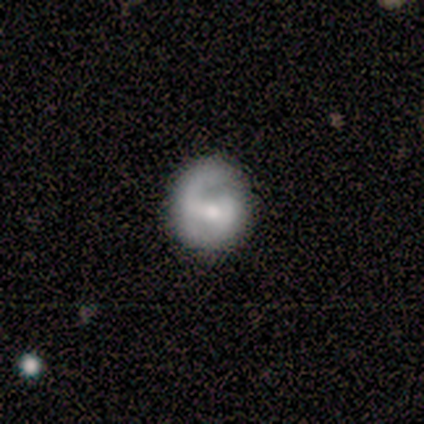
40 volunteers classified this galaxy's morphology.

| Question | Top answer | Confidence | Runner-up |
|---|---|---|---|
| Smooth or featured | featured or disk | 78% | smooth (22%) |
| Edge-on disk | no | 100% | — |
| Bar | weak | 58% | strong (23%) |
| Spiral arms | yes | 84% | no (16%) |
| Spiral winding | tight | 42% | medium (38%) |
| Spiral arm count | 2 | 81% | can't tell (15%) |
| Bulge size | moderate | 74% | small (26%) |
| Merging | none | 55% | minor disturbance (8%) |